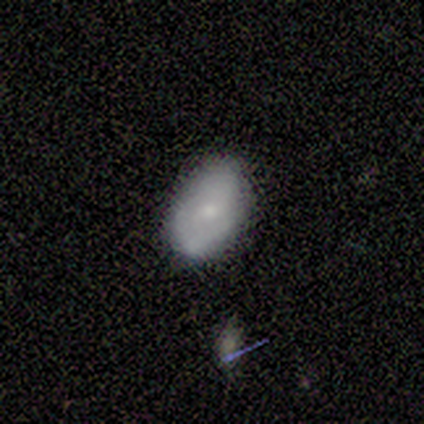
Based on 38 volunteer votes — A smooth galaxy with no disk features (63%) that is in between round and cigar-shaped (83%). Merging: none (86%).